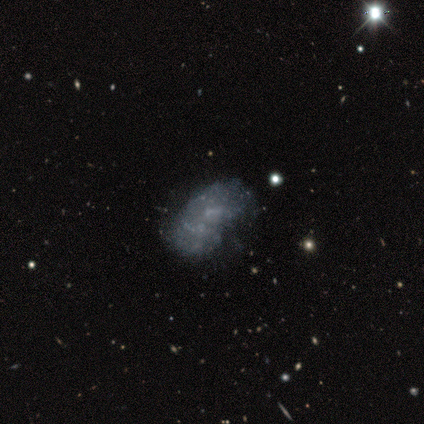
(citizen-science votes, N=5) smooth 40% (tied), featured or disk 40% (tied), star or artifact 20%. Down the decision tree: how rounded — in between (100%); merging — none (50%).